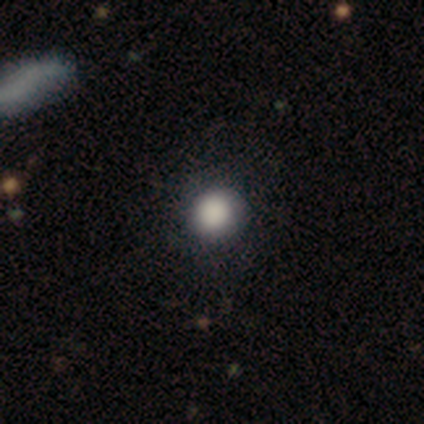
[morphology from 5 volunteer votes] smooth 60%, featured or disk 20%, star or artifact 20%. Down the decision tree: how rounded — round (67%); merging — none (75%).